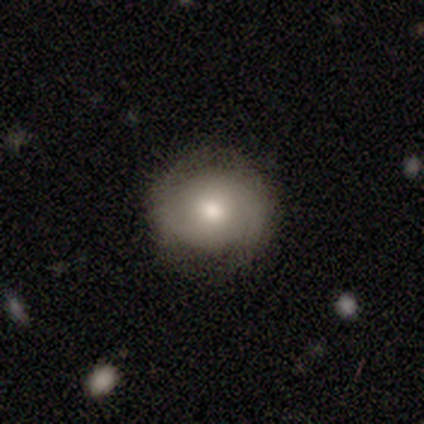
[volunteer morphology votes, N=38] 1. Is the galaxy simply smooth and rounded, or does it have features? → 50% featured or disk, 39% smooth, 11% star or artifact.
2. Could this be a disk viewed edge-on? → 95% no, 5% yes.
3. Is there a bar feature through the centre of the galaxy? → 67% no, 28% weak, 6% strong.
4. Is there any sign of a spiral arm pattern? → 61% yes, 39% no.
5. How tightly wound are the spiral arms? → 64% tight, 27% loose, 9% medium.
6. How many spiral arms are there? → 73% 2, 18% can't tell, 9% 4, 0% 1, 0% 3, 0% more than 4.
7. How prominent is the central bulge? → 67% moderate, 22% small, 11% large, 0% dominant, 0% none.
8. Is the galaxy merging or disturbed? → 85% none, 9% minor disturbance, 6% major disturbance, 0% merger.